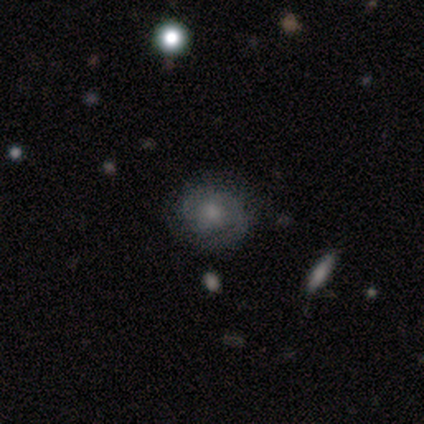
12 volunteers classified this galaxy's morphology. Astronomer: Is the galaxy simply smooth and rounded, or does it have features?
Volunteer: featured or disk — 58% (runner-up: smooth, 42%).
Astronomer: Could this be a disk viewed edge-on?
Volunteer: no — 86%.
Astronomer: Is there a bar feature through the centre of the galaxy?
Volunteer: weak — 50%, tied with no at 50%.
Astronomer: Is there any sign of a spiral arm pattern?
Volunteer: yes — 83%.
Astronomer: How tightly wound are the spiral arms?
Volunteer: medium — 60% (runner-up: tight, 40%).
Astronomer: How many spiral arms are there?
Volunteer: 2 — 80%.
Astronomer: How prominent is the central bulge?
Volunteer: none — 50% (runner-up: moderate, 33%).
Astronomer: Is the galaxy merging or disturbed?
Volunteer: none — 83%.